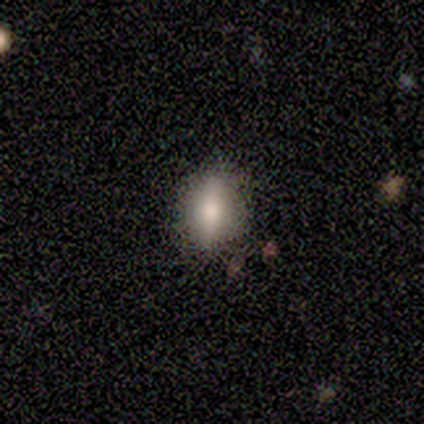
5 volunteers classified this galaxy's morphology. This appears to be a smooth galaxy with no disk features (80%) that is in between round and cigar-shaped (75%). Merging: none (80%).